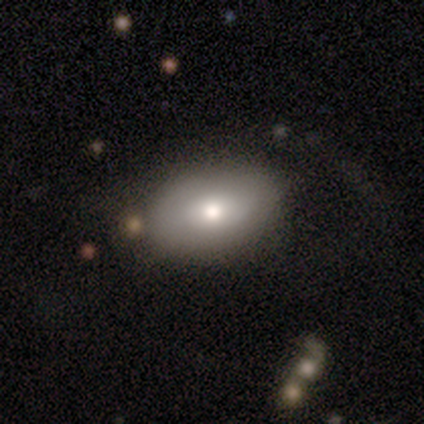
Smooth or featured: smooth — 65% (featured or disk — 22%)
How rounded: in between — 100%
Merging: none — 62% (minor disturbance — 22%)